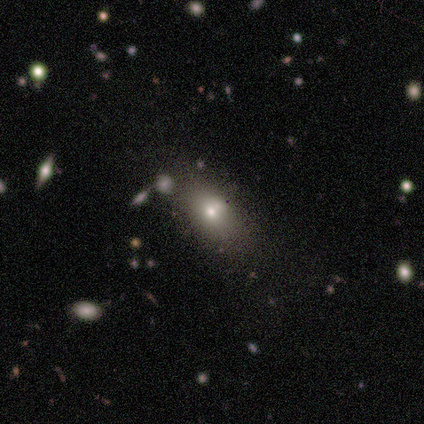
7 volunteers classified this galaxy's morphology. Smooth or featured: smooth — 86% (star or artifact — 14%)
How rounded: round — 50% (tied with in between — 50%)
Merging: none — 83% (minor disturbance — 17%)